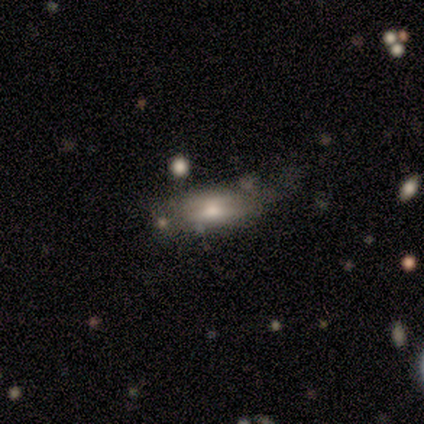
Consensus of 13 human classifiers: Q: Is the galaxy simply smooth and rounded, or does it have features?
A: smooth — 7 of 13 (54%).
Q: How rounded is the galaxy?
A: in between — 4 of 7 (57%).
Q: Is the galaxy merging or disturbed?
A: none — 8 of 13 (62%).